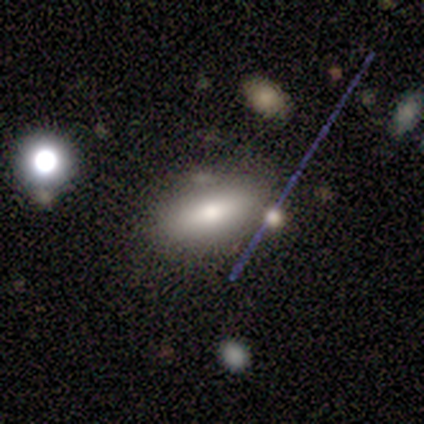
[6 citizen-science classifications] smooth-or-featured: smooth: 67% | featured or disk: 17% | star or artifact: 17%
  how-rounded: in between: 50% (tied) | cigar-shaped: 50% (tied) | round: 0%
  merging: none: 80% | minor disturbance: 20% | major disturbance: 0% | merger: 0%